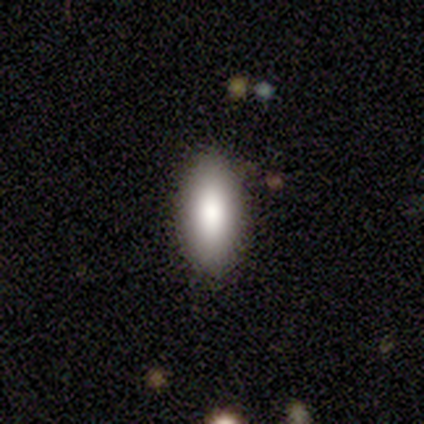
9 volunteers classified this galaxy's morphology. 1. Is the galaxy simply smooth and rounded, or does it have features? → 67% smooth, 33% star or artifact, 0% featured or disk.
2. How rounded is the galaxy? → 67% in between, 33% cigar-shaped, 0% round.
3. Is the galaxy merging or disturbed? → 50% none (tied), 50% minor disturbance (tied), 0% major disturbance, 0% merger.